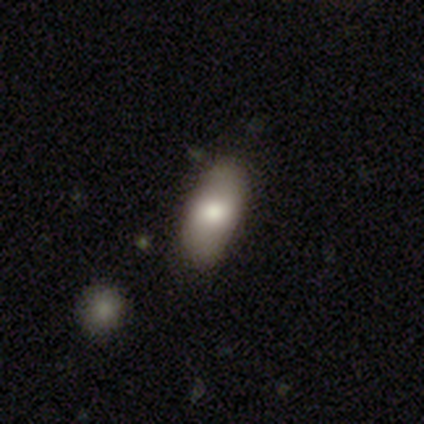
Volunteers were most divided on "smooth or featured": smooth: 80%, featured or disk: 20%, star or artifact: 0%. More confident: how rounded — in between (100%); merging — none (80%).